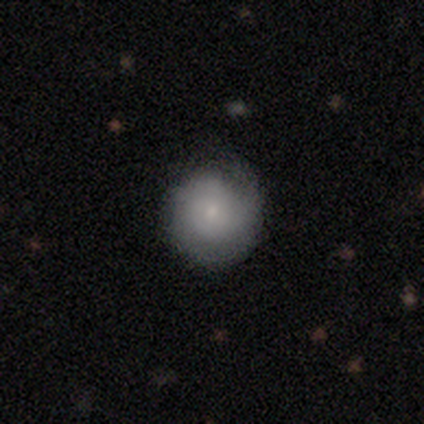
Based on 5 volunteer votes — Smooth or featured: smooth — 80% (featured or disk — 20%)
How rounded: round — 100%
Merging: none — 100%